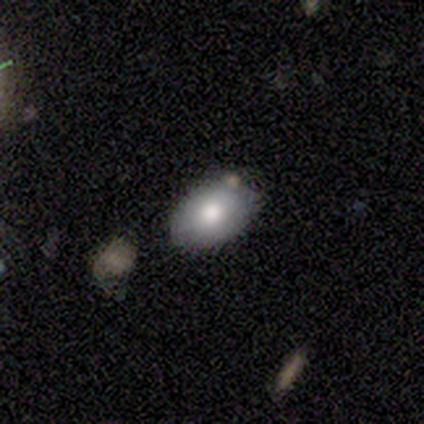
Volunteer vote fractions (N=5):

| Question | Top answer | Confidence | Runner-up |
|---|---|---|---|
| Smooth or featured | smooth | 100% | — |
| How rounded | in between | 100% | — |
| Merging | none | 80% | minor disturbance (20%) |